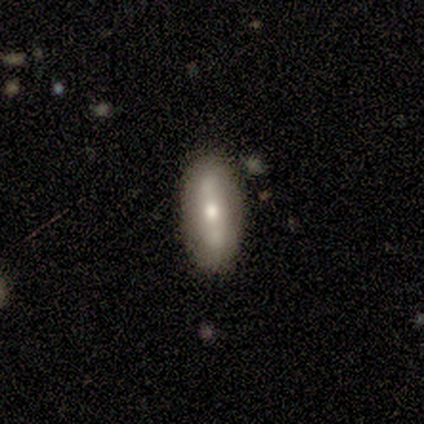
smooth_or_featured: smooth (p=0.40) [tied with: featured or disk p=0.40]
how_rounded: in between (p=0.50) [tied with: cigar-shaped p=0.50]
merging: none (p=0.50) [tied with: major disturbance p=0.50]